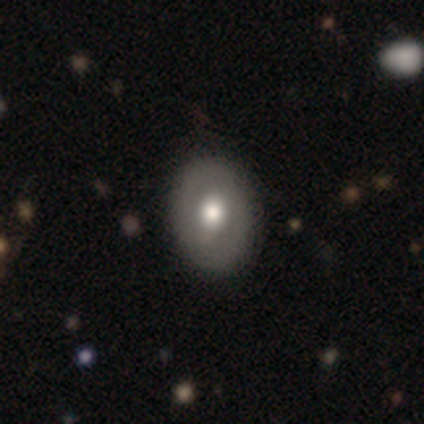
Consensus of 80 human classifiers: smooth 61%, featured or disk 30%, star or artifact 9%. Down the decision tree: how rounded — in between (76%); merging — none (44%).